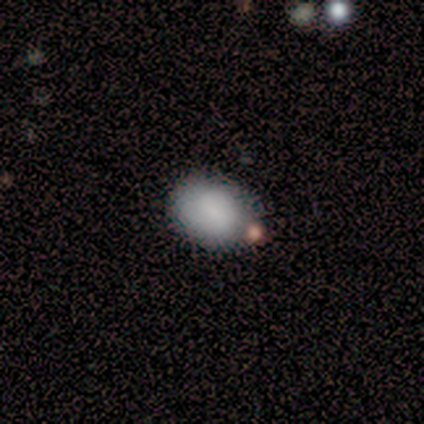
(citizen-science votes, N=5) Smooth or featured?
  - smooth: 100% *
  - featured or disk: 0%
  - star or artifact: 0%
How rounded?
  - in between: 60% *
  - round: 40%
  - cigar-shaped: 0%
Merging?
  - none: 100% *
  - minor disturbance: 0%
  - major disturbance: 0%
  - merger: 0%